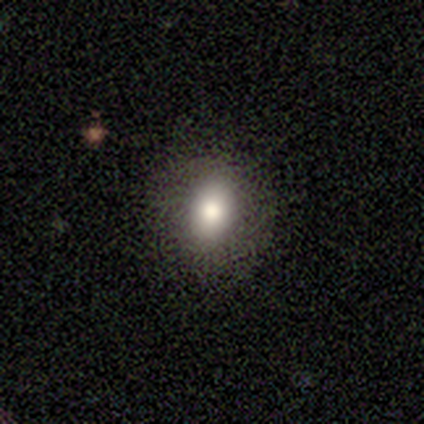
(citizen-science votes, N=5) This is clearly a smooth galaxy (100%). How rounded: likely in between (60%). Merging: clearly none (80%).